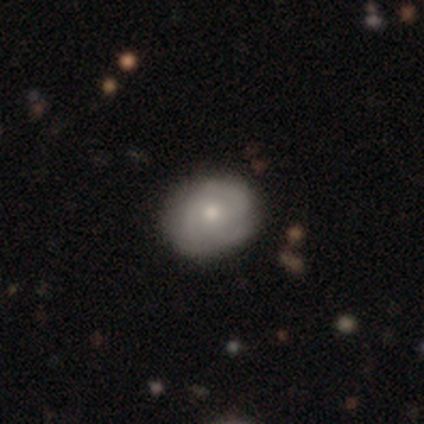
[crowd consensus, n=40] Smooth or featured: smooth — 50% (featured or disk — 38%)
How rounded: round — 60% (in between — 40%)
Merging: none — 83% (minor disturbance — 14%)